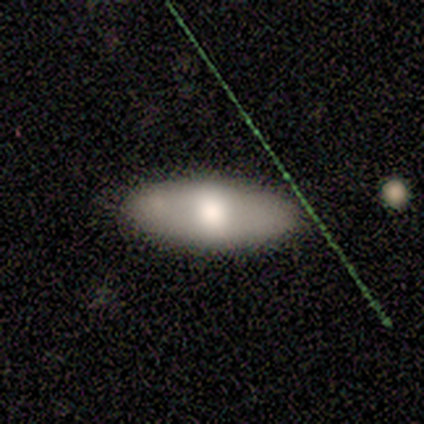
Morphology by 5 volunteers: type=smooth (80%); roundness=in between (100%); merging=none (100%).